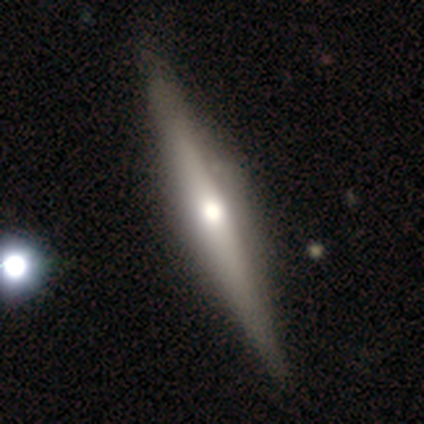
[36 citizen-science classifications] Smooth or featured? featured or disk (81%)
Edge-on disk? yes (97%)
Edge-on bulge? rounded (86%)
Merging? none (80%)